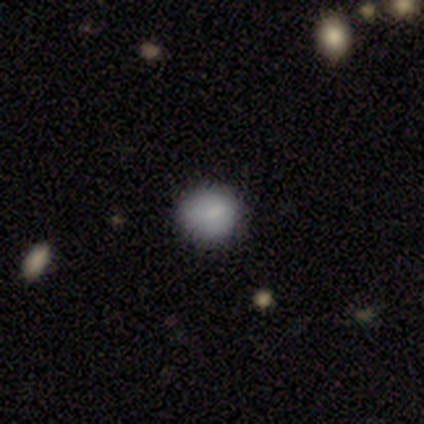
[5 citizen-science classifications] smooth-or-featured: smooth: 80% | star or artifact: 20% | featured or disk: 0%
  how-rounded: round: 100% | in between: 0% | cigar-shaped: 0%
  merging: none: 100% | minor disturbance: 0% | major disturbance: 0% | merger: 0%